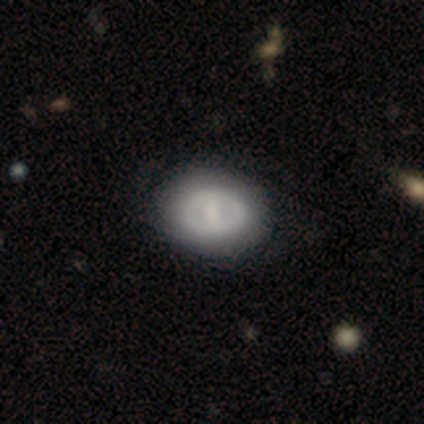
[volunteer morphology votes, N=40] Smooth or featured? 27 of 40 (68%) said featured or disk. Edge-on disk? 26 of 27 (96%) said no. Bar? 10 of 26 (38%) said no. Spiral arms? 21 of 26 (81%) said no. Bulge size? 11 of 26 (42%) said moderate. Merging? 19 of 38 (50%) said none.